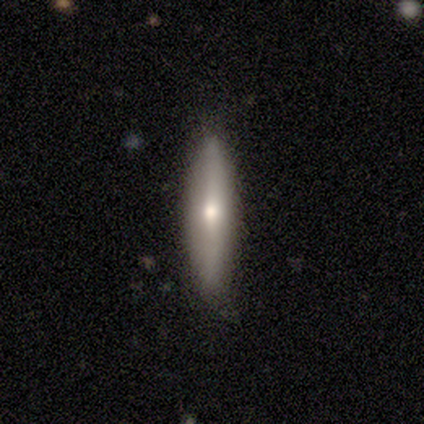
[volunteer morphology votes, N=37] This appears to be a featured or disk galaxy (59%) viewed edge-on (82%) with a rounded central bulge (100%). Merging: none (84%).